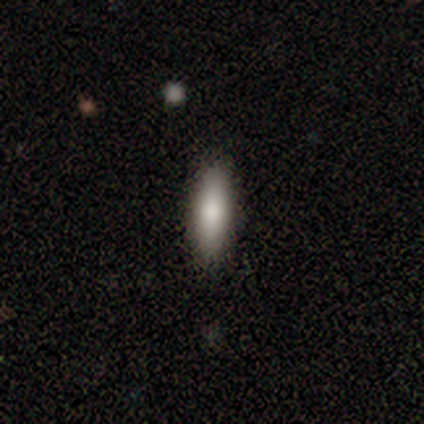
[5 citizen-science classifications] Morphology: type=smooth (100%); roundness=cigar-shaped (80%); merging=none (100%).